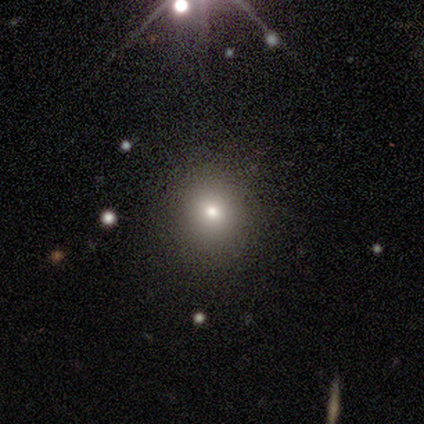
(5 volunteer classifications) Smooth or featured? smooth (100%)
How rounded? round (100%)
Merging? none (100%)